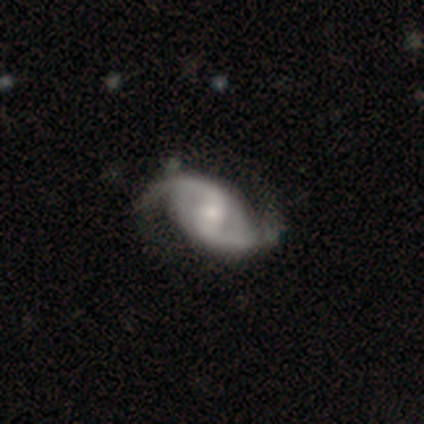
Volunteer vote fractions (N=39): This is clearly a featured or disk galaxy (92%). It is clearly not viewed edge-on (94%). Bar: possibly weak (47%). Spiral arm pattern: clearly yes (94%). Spiral arm count: clearly 2 (97%). Spiral winding: possibly loose (50%). Central bulge: possibly moderate (50%). Merging: possibly none (50%).